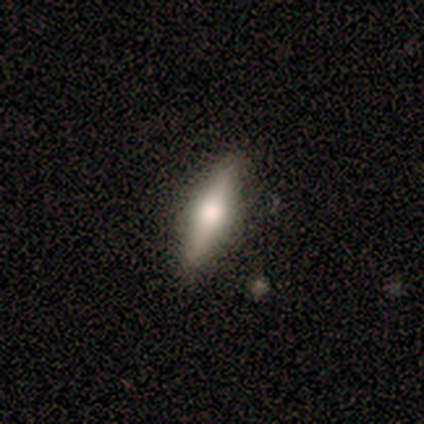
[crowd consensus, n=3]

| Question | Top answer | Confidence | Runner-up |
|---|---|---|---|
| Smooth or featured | featured or disk | 67% | smooth (33%) |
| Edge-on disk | yes | 100% | — |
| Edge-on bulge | rounded | 100% | — |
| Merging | none | 100% | — |